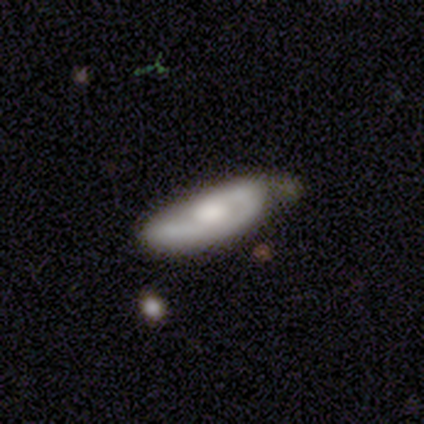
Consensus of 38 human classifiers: A featured or disk galaxy (63%) with no bar (85%), 1 (53%) tight (42%) spiral arms (95%) and a moderate central bulge (50%).

Vote fractions:
- Smooth or featured? featured or disk: 63% / smooth: 26% / star or artifact: 11%
- Edge-on disk? no: 83% / yes: 17%
- Bar? no: 85% / weak: 15% / strong: 0%
- Spiral arms? yes: 95% / no: 5%
- Spiral winding? tight: 42% / medium: 37% / loose: 21%
- Spiral arm count? 1: 53% / 2: 42% / can't tell: 5% / 3: 0% / 4: 0% / more than 4: 0%
- Bulge size? moderate: 50% / large: 20% / small: 20% / none: 10% / dominant: 0%
- Merging? none: 59% / minor disturbance: 24% / major disturbance: 12% / merger: 6%